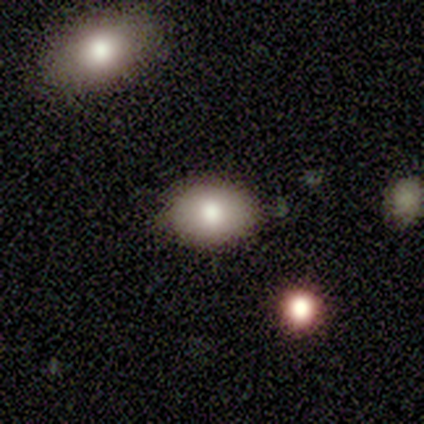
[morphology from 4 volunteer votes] smooth-or-featured: smooth: 100% | featured or disk: 0% | star or artifact: 0%
  how-rounded: in between: 100% | round: 0% | cigar-shaped: 0%
  merging: none: 100% | minor disturbance: 0% | major disturbance: 0% | merger: 0%